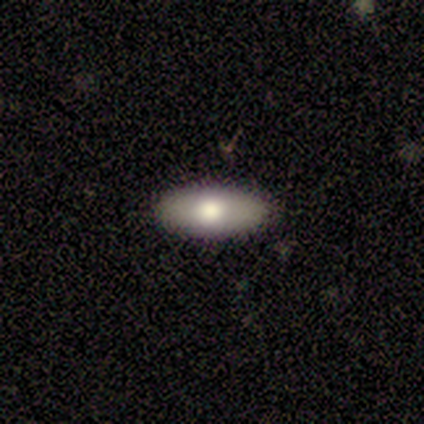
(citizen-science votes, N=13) smooth_or_featured: smooth (p=0.69) [alt: featured or disk p=0.31]
how_rounded: in between (p=0.89) [alt: cigar-shaped p=0.11]
merging: none (p=0.77) [alt: minor disturbance p=0.15]